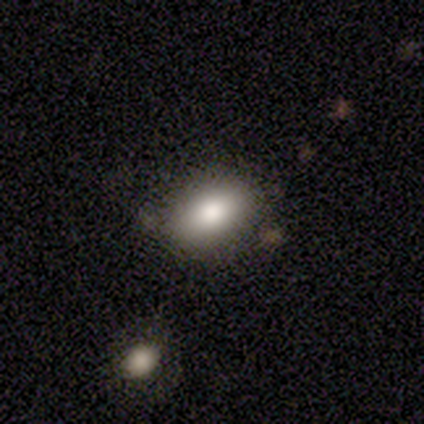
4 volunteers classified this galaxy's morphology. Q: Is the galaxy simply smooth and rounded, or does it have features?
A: smooth — 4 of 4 (100%).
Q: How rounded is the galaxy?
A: in between — 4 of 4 (100%).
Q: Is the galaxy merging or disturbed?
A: none — 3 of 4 (75%).